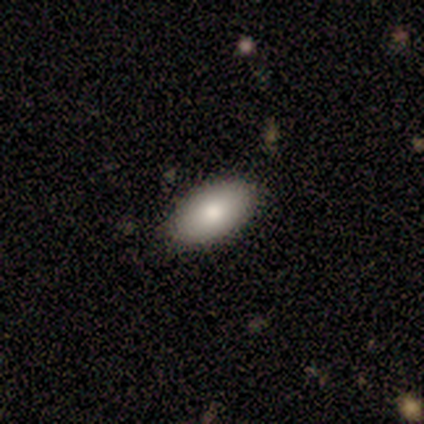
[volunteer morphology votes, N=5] Smooth or featured? smooth (80%)
How rounded? in between (100%)
Merging? none (100%)